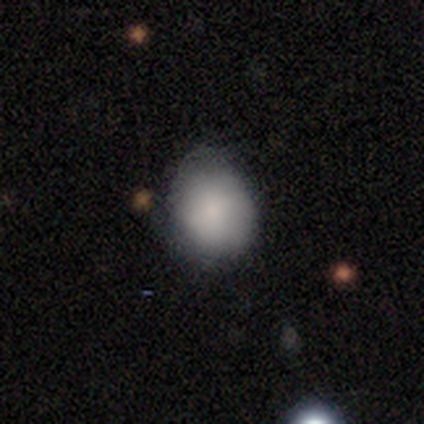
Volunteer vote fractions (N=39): smooth-or-featured: smooth: 82% | featured or disk: 13% | star or artifact: 5%
  how-rounded: round: 66% | in between: 34% | cigar-shaped: 0%
  merging: none: 49% | minor disturbance: 27% | major disturbance: 5% | merger: 0%